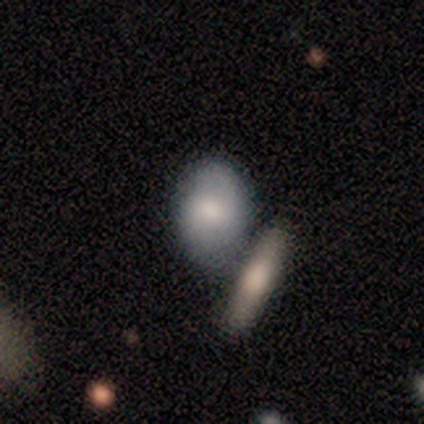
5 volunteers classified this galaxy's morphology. This appears to be a smooth galaxy with no disk features (60%) that is in between round and cigar-shaped (67%). Merging: merger (60%).